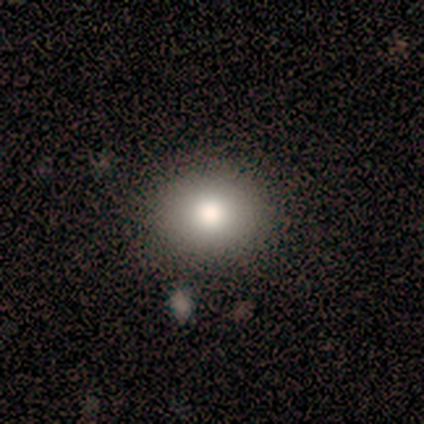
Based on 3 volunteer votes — Volunteers were most divided on "smooth or featured": smooth: 67%, featured or disk: 33%, star or artifact: 0%. More confident: how rounded — round (100%); merging — none (100%).